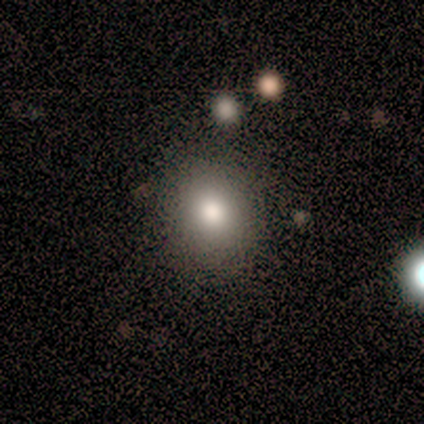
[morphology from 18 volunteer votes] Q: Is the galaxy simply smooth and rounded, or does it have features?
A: smooth — 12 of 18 (67%).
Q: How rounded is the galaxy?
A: round — 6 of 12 (50%, tied with in between).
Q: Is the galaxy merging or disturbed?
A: none — 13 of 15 (87%).